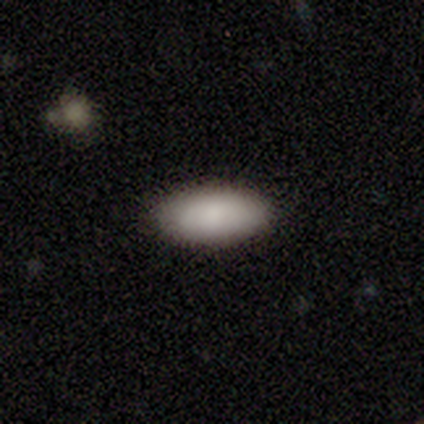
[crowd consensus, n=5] Smooth or featured? 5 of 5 (100%) said smooth. How rounded? 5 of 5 (100%) said in between. Merging? 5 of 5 (100%) said none.